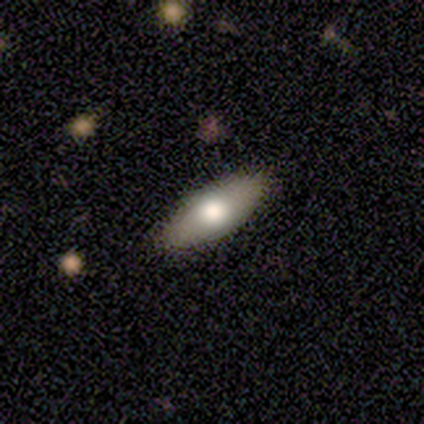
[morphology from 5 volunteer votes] type=smooth (80%); roundness=in between (75%); merging=none (100%).